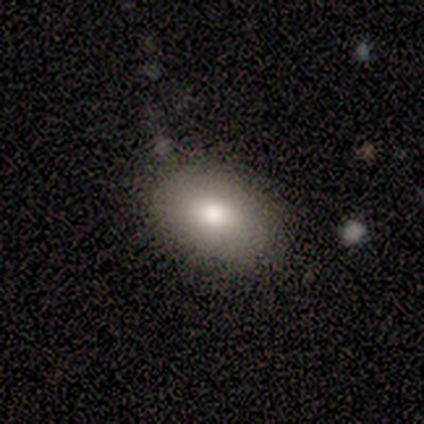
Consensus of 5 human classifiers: A smooth galaxy with no disk features (60%) that is in between round and cigar-shaped (100%). Merging: none (100%).